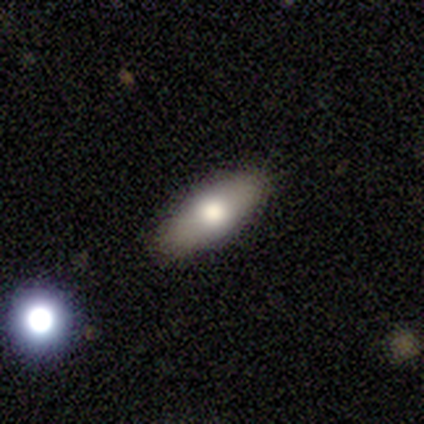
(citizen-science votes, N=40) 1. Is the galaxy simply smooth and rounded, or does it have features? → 75% smooth, 18% featured or disk, 8% star or artifact.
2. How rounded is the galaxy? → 80% in between, 20% cigar-shaped, 0% round.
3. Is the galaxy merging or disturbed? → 92% none, 5% minor disturbance, 3% major disturbance, 0% merger.